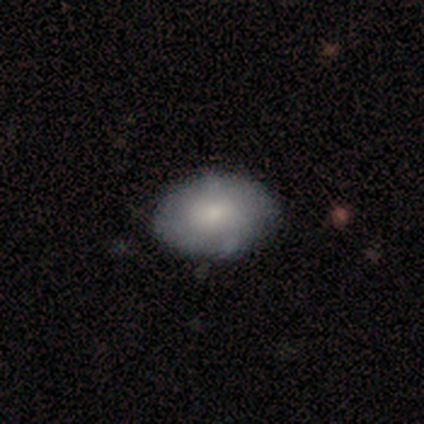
Smooth or featured?
  - smooth: 100% *
  - featured or disk: 0%
  - star or artifact: 0%
How rounded?
  - in between: 83% *
  - round: 17%
  - cigar-shaped: 0%
Merging?
  - none: 83% *
  - minor disturbance: 17%
  - major disturbance: 0%
  - merger: 0%